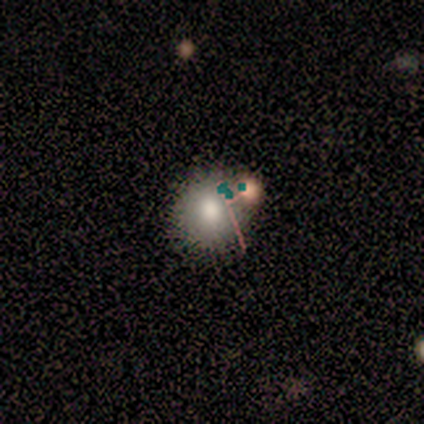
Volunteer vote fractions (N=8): smooth 75%, featured or disk 12%, star or artifact 12%. Down the decision tree: how rounded — round (83%); merging — none (71%).